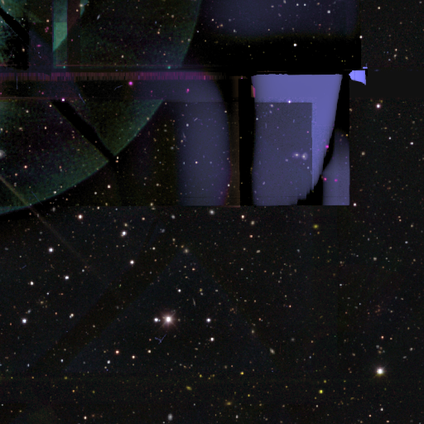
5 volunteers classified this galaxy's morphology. star or artifact 100%, smooth 0%, featured or disk 0%.